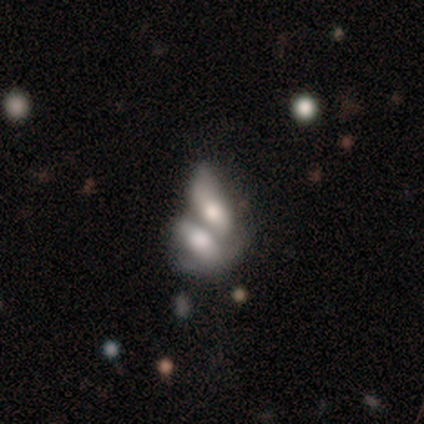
Smooth or featured? smooth (100%)
How rounded? in between (100%)
Merging? merger (100%)